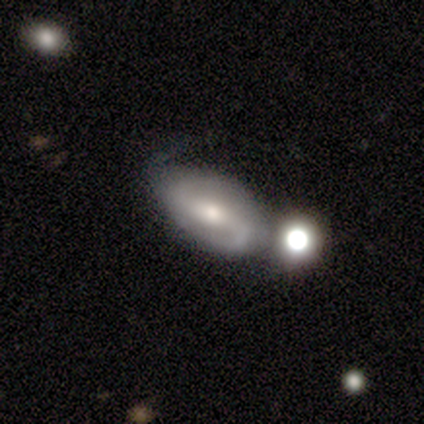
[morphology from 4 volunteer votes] Volunteers were most divided on "spiral arm count" (2-way tie): 2: 50%, can't tell: 50%, 1: 0%, 3: 0%, 4: 0%, more than 4: 0%. More confident: edge-on disk — no (100%); spiral winding — loose (100%); smooth or featured — featured or disk (75%); merging — none (75%); bar — weak (67%); spiral arms — yes (67%); bulge size — moderate (67%).